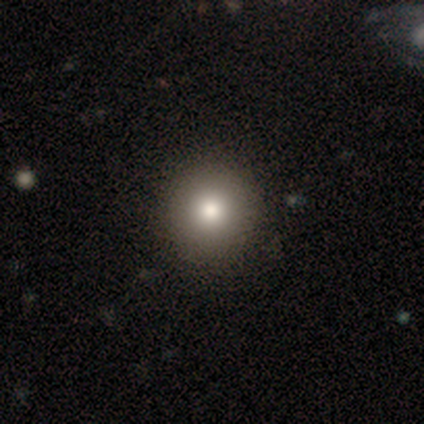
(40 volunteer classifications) This is clearly a smooth galaxy (85%). How rounded: clearly round (94%). Merging: likely none (63%).